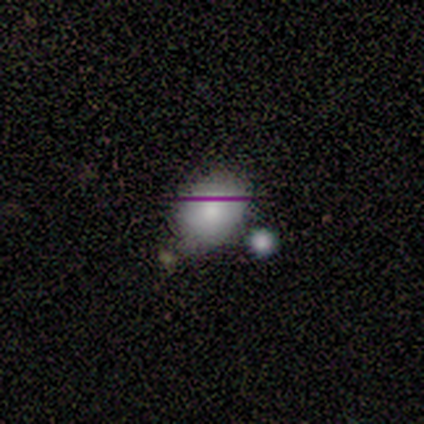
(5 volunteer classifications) This is clearly a smooth galaxy (80%). How rounded: likely in between (75%). Merging: possibly none (50%, tied with minor disturbance).